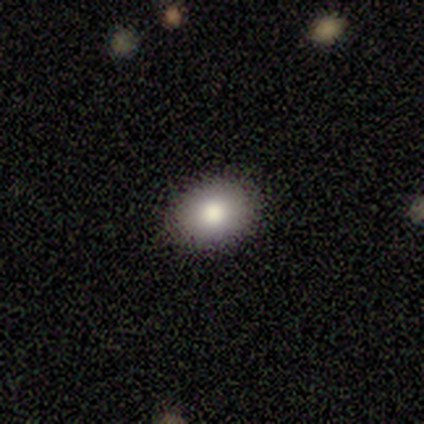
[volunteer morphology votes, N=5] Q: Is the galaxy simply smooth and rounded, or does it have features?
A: smooth — 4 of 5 (80%).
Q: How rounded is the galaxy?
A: in between — 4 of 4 (100%).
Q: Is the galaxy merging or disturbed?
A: none — 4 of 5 (80%).